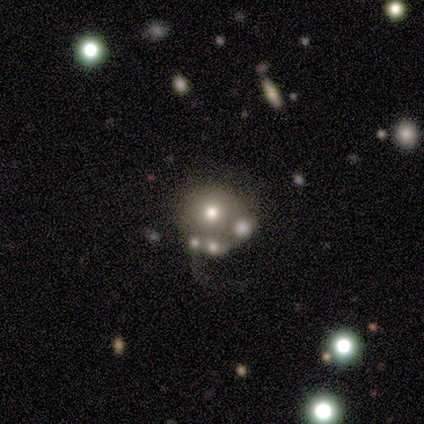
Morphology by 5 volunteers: smooth_or_featured: smooth (p=0.60) [alt: featured or disk p=0.20]
how_rounded: round (p=1.00)
merging: merger (p=0.75) [alt: none p=0.25]